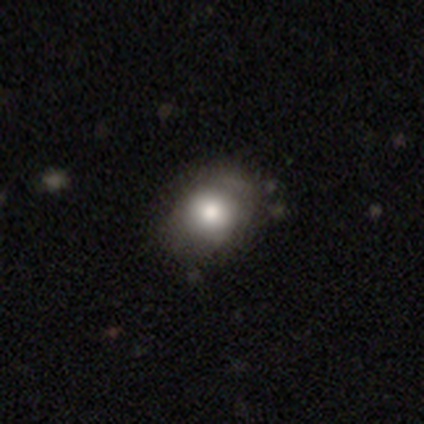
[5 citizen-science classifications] Morphology: type=smooth (60%); roundness=in between (67%); merging=none (80%).